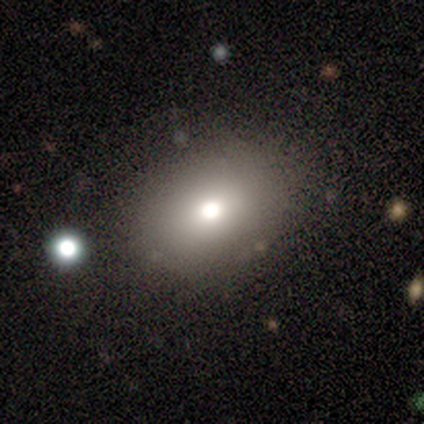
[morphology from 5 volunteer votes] Smooth or featured: smooth — 60% (featured or disk — 40%)
How rounded: in between — 67% (round — 33%)
Merging: none — 100%